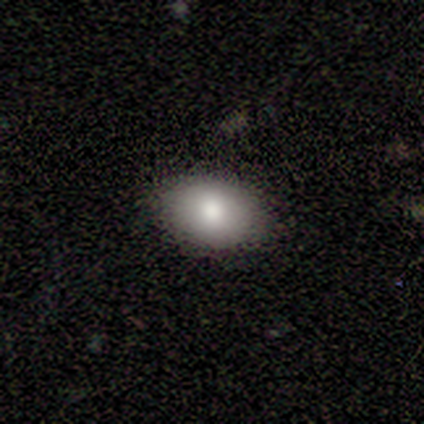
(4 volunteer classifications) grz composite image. It shows a smooth galaxy with no disk features (100%) that is in between round and cigar-shaped (100%). Merging: none (75%).